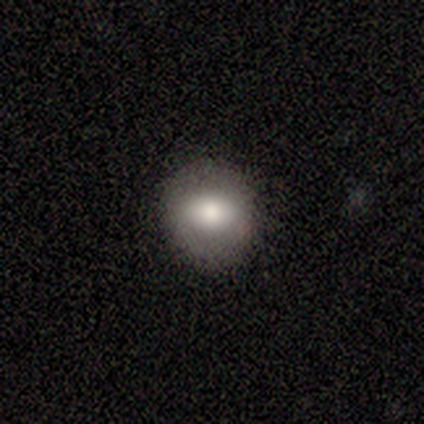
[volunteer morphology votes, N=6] smooth 83%, featured or disk 17%, star or artifact 0%. Down the decision tree: how rounded — in between (60%); merging — none (50%, tied with minor disturbance).